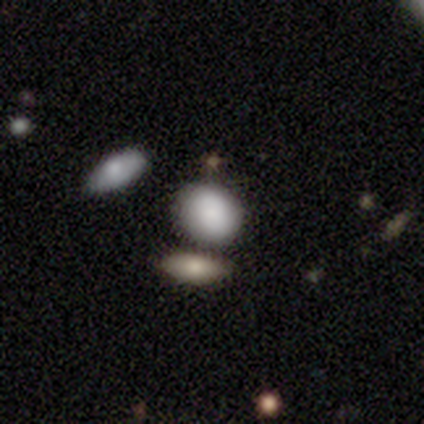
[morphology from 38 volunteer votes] Overall: smooth (89%). How rounded: round (62%; in between 35%). Merging: none (61%; minor disturbance 22%).